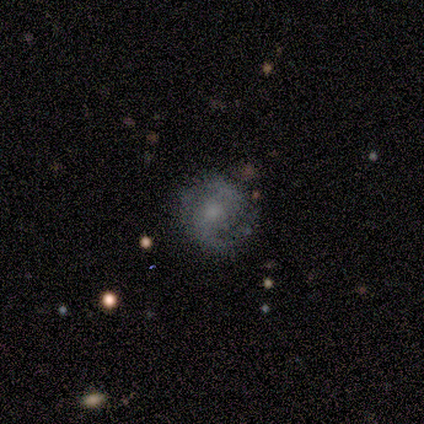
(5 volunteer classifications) Volunteers were most divided on "bulge size" (2-way tie): small: 50%, none: 50%, dominant: 0%, large: 0%, moderate: 0%. More confident: edge-on disk — no (100%); spiral arms — yes (100%); spiral arm count — 2 (100%); smooth or featured — featured or disk (80%); merging — none (80%); bar — no (75%); spiral winding — tight (75%).